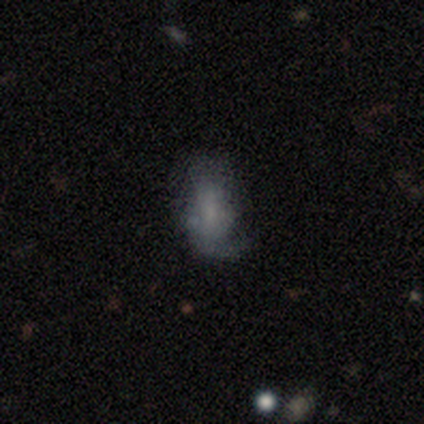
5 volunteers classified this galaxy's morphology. A featured or disk galaxy (60%) with no bar (67%), loose (67%) spiral arms (100%) and a moderate central bulge (33%, tied with small and none).

Vote fractions:
- Smooth or featured? featured or disk: 60% / smooth: 40% / star or artifact: 0%
- Edge-on disk? no: 100% / yes: 0%
- Bar? no: 67% / weak: 33% / strong: 0%
- Spiral arms? yes: 100% / no: 0%
- Spiral winding? loose: 67% / medium: 33% / tight: 0%
- Spiral arm count? can't tell: 67% / 2: 33% / 1: 0% / 3: 0% / 4: 0% / more than 4: 0%
- Bulge size? moderate: 33% (tied) / small: 33% (tied) / none: 33% (tied) / dominant: 0% / large: 0%
- Merging? none: 40% (tied) / minor disturbance: 40% (tied) / merger: 20% / major disturbance: 0%